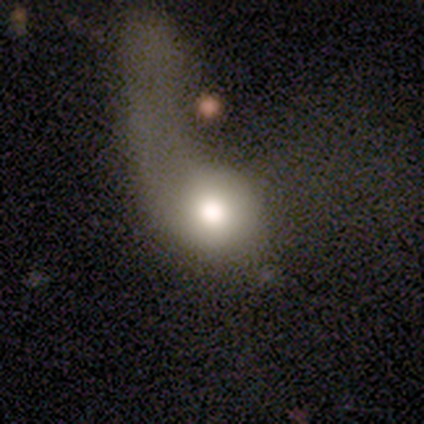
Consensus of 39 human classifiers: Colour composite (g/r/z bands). It shows a smooth galaxy with no disk features (51%) that is round (60%). Merging: major disturbance (74%).